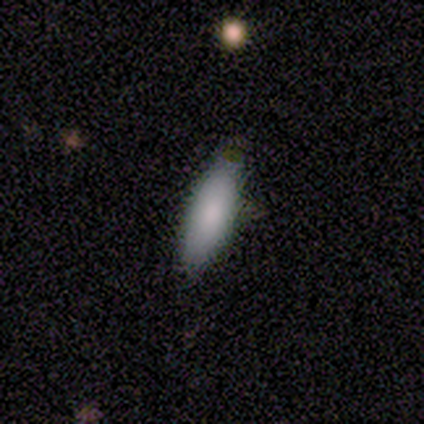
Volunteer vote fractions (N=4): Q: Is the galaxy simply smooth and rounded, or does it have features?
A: smooth — 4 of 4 (100%).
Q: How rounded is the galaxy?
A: in between — 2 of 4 (50%, tied with cigar-shaped).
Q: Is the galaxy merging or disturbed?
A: none — 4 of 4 (100%).